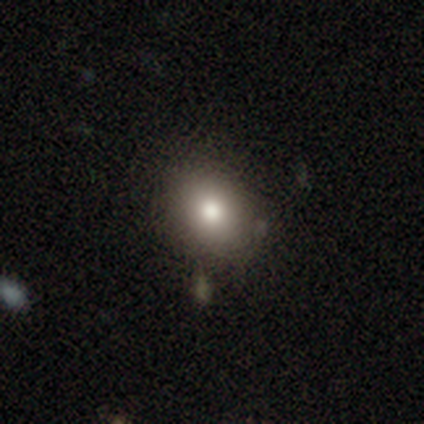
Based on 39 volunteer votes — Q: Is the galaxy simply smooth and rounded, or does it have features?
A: smooth — 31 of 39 (79%).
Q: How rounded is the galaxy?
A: round — 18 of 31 (58%).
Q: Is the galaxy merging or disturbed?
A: none — 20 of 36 (56%).